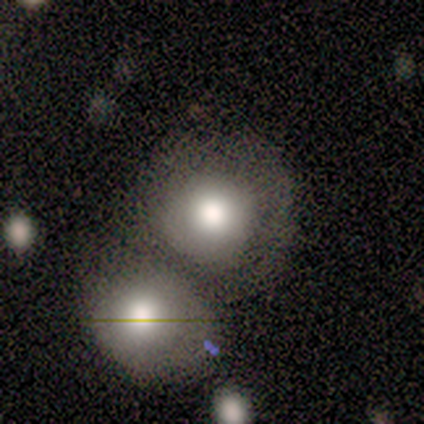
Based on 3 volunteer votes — A smooth galaxy with no disk features (67%) that is round (100%).

Vote fractions:
- Smooth or featured? smooth: 67% / featured or disk: 33% / star or artifact: 0%
- How rounded? round: 100% / in between: 0% / cigar-shaped: 0%
- Merging? merger: 100% / none: 0% / minor disturbance: 0% / major disturbance: 0%